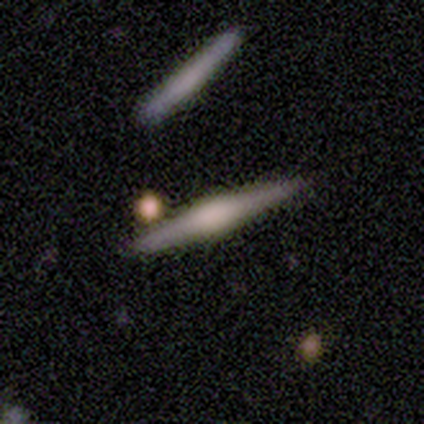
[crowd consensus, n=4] Smooth or featured: featured or disk — 100%
Edge-on disk: yes — 100%
Edge-on bulge: rounded — 75% (boxy — 25%)
Merging: none — 100%